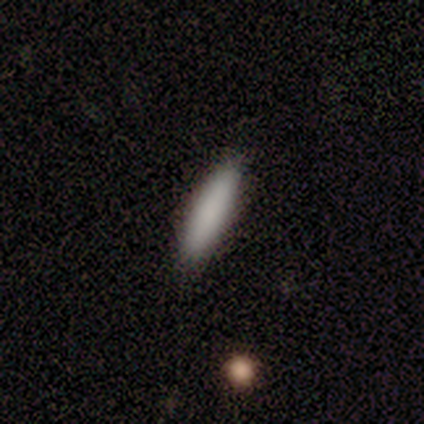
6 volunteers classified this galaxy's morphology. Q: Smooth or featured?
A: smooth (100%)
Q: How rounded?
A: cigar-shaped (100%)
Q: Merging?
A: none (100%)